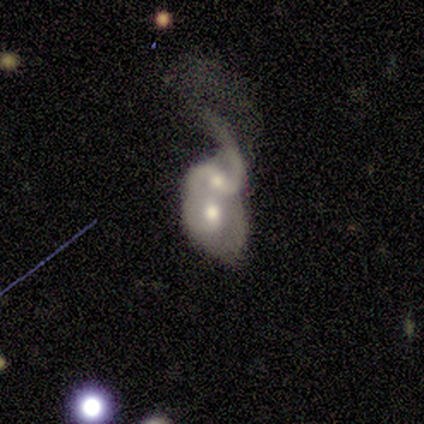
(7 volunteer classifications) Smooth or featured? featured or disk (71%)
Edge-on disk? no (80%)
Bar? weak (50%, tied with no)
Spiral arms? yes (100%)
Spiral winding? loose (50%)
Spiral arm count? 2 (50%)
Bulge size? moderate (100%)
Merging? merger (100%)